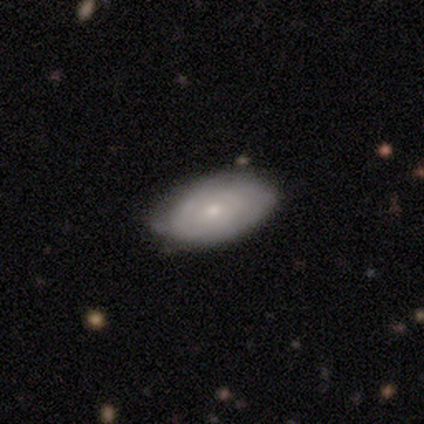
A featured or disk galaxy (53%) with no bar (60%), tight (62%) spiral arms (65%) and a small central bulge (60%). Merging: none (45%).